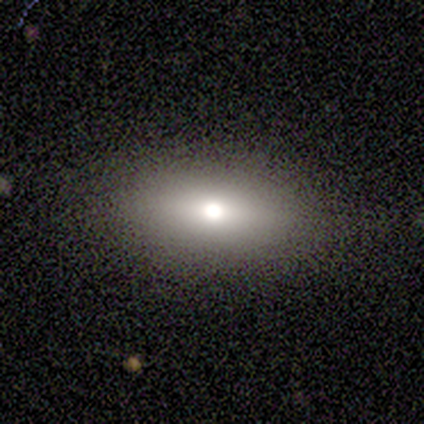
Q: Smooth or featured?
A: smooth (60%); runner-up: star or artifact (40%)
Q: How rounded?
A: in between (100%)
Q: Merging?
A: none (67%); runner-up: minor disturbance (33%)